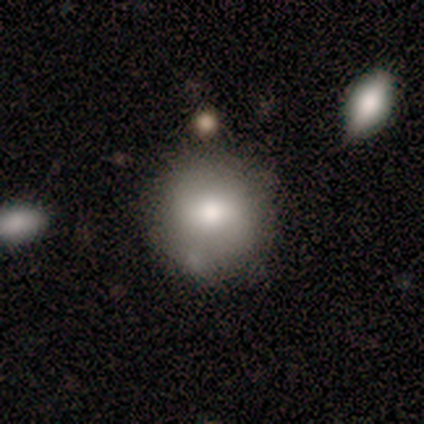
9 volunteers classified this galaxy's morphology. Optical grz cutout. It shows a featured or disk galaxy (56%) with no bar (67%), 2 (50%, tied with can't tell) medium (50%, tied with loose) spiral arms (67%) and a moderate central bulge (100%). Merging: none (67%).